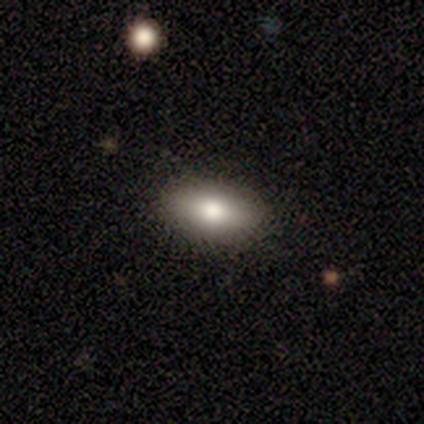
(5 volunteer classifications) Q: Smooth or featured?
A: smooth (80%); runner-up: featured or disk (20%)
Q: How rounded?
A: in between (100%)
Q: Merging?
A: none (100%)